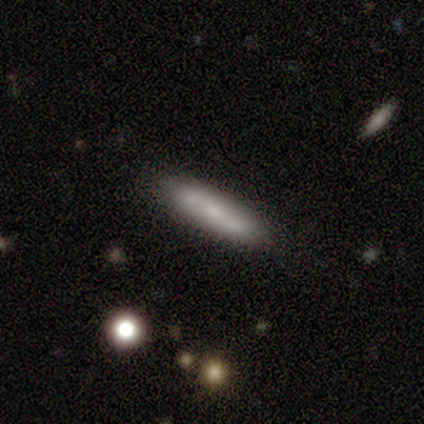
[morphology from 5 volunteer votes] A smooth galaxy with no disk features (60%) that is cigar-shaped (100%).

Vote fractions:
- Smooth or featured? smooth: 60% / featured or disk: 40% / star or artifact: 0%
- How rounded? cigar-shaped: 100% / round: 0% / in between: 0%
- Merging? none: 80% / merger: 20% / minor disturbance: 0% / major disturbance: 0%